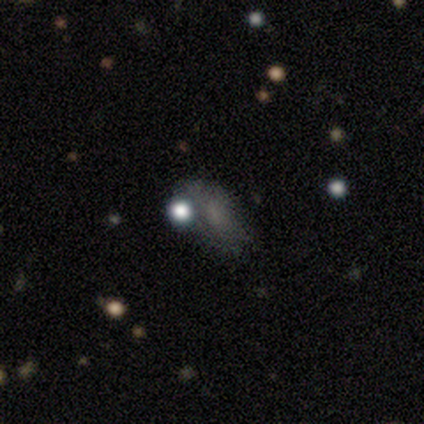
This appears to be a smooth galaxy with no disk features (49%) that is in between round and cigar-shaped (57%). Merging: none (33%, tied with major disturbance).